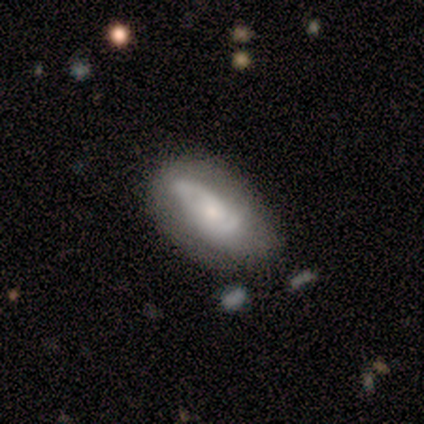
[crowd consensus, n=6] Overall: smooth (50%, tied with featured or disk). How rounded: in between (67%; cigar-shaped 33%). Merging: none (67%).